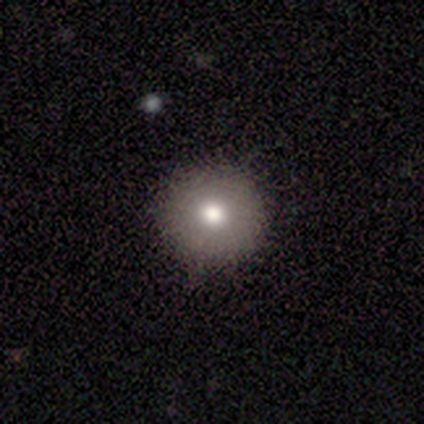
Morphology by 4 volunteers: smooth 75%, featured or disk 25%, star or artifact 0%. Down the decision tree: how rounded — round (100%); merging — none (75%).